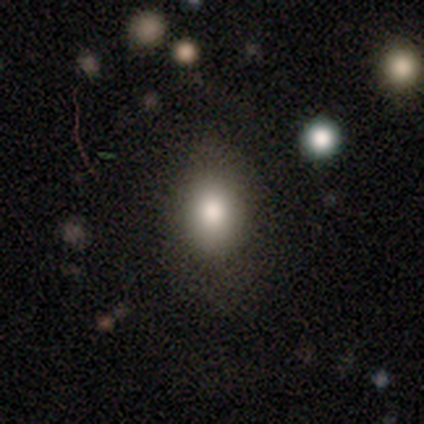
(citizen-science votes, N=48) Overall: smooth (73%). How rounded: in between (57%; round 43%). Merging: none (84%).